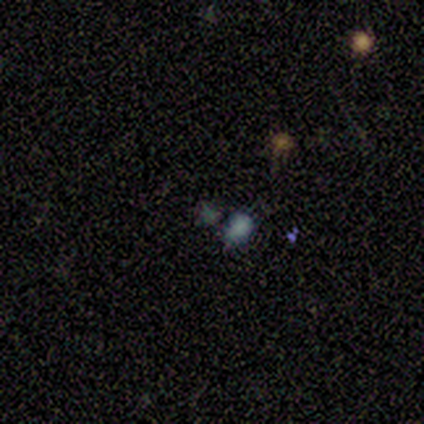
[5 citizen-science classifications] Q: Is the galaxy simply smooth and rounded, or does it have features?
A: smooth — 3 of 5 (60%).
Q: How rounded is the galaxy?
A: in between — 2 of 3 (67%).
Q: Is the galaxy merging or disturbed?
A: none — 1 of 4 (25%, tied with minor disturbance, major disturbance and merger).